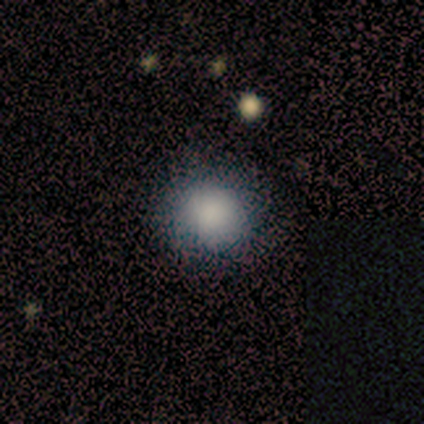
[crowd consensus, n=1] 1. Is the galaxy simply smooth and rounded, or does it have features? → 100% smooth, 0% featured or disk, 0% star or artifact.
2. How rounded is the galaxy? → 100% round, 0% in between, 0% cigar-shaped.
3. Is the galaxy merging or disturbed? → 100% none, 0% minor disturbance, 0% major disturbance, 0% merger.